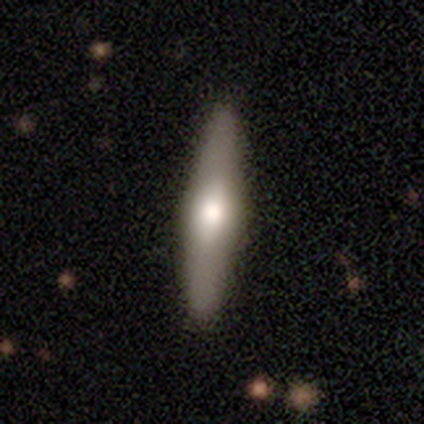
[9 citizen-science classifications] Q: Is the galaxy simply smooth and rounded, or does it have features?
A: smooth — 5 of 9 (56%).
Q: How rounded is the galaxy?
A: cigar-shaped — 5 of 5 (100%).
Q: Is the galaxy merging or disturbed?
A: none — 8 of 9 (89%).